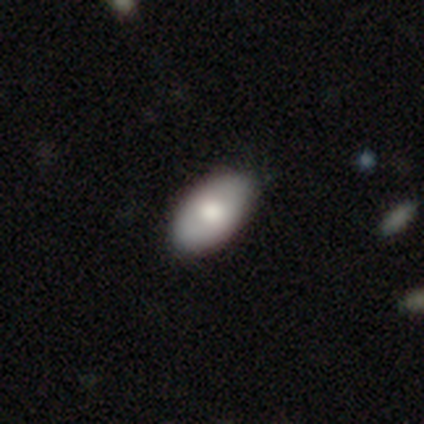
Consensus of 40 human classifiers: A smooth galaxy with no disk features (65%) that is in between round and cigar-shaped (100%). Merging: none (57%).